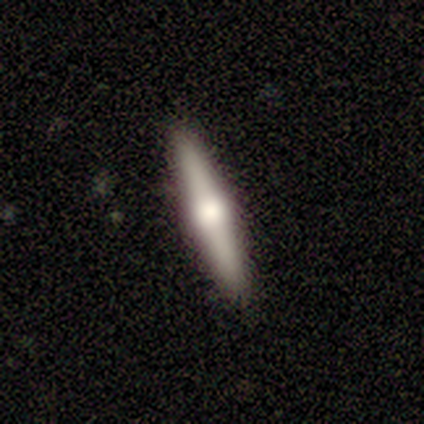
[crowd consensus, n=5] Smooth or featured? smooth (60%)
How rounded? cigar-shaped (100%)
Merging? none (100%)